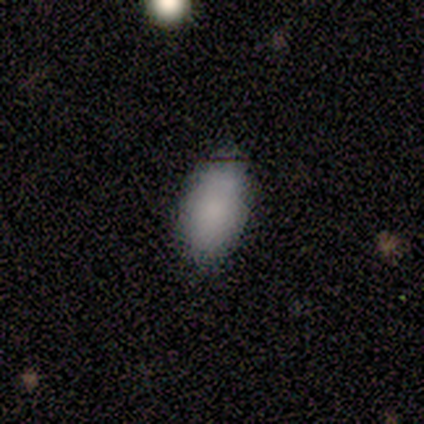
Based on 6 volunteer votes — Smooth or featured?
  - smooth: 67% *
  - featured or disk: 33%
  - star or artifact: 0%
How rounded?
  - in between: 100% *
  - round: 0%
  - cigar-shaped: 0%
Merging?
  - none: 100% *
  - minor disturbance: 0%
  - major disturbance: 0%
  - merger: 0%